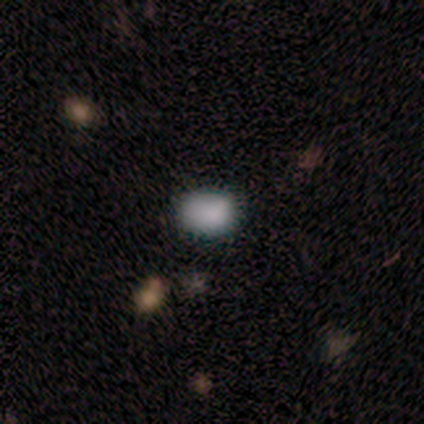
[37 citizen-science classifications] This is likely a smooth galaxy (73%). How rounded: possibly in between (52%). Merging: likely none (76%).